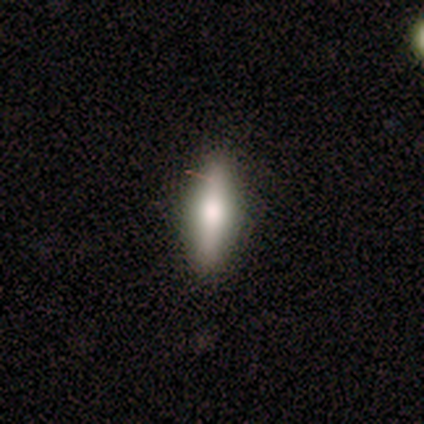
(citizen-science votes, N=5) Smooth or featured? smooth (80%)
How rounded? in between (50%, tied with cigar-shaped)
Merging? none (80%)